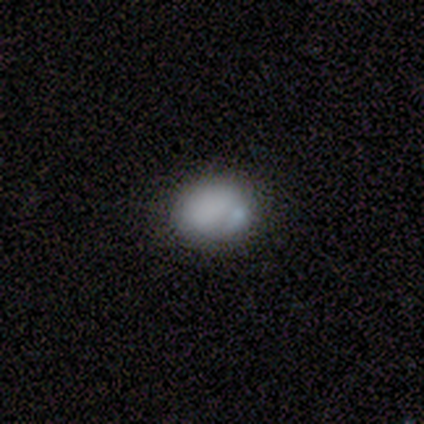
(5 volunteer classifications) Morphology: type=smooth (60%); roundness=in between (67%); merging=minor disturbance (40%, tied with merger).